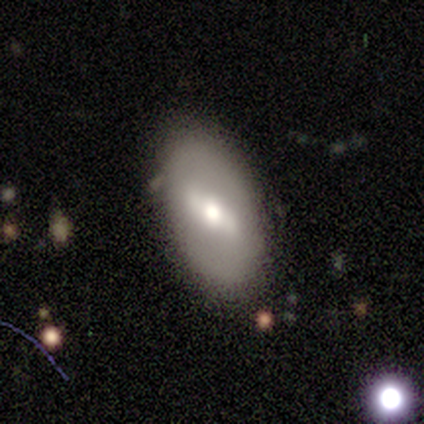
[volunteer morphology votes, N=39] Smooth or featured? 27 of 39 (69%) said featured or disk. Edge-on disk? 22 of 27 (81%) said no. Bar? 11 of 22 (50%) said strong. Spiral arms? 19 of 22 (86%) said no. Bulge size? 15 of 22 (68%) said moderate. Merging? 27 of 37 (73%) said none.